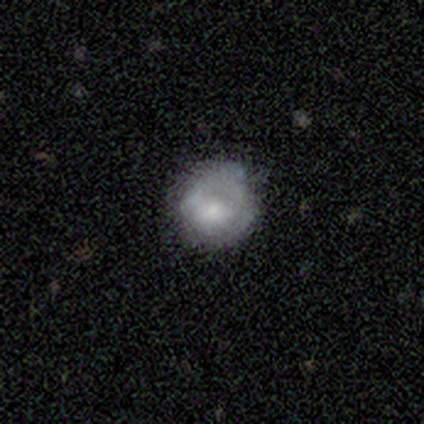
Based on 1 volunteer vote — This appears to be a featured or disk galaxy (100%) with no bar (100%), no spiral arms (100%) and a moderate central bulge (100%). Merging: minor disturbance (100%).